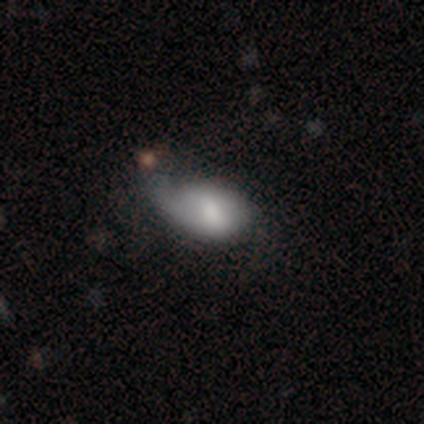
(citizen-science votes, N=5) smooth_or_featured: smooth (p=0.40) [tied with: featured or disk p=0.40]
how_rounded: in between (p=0.50) [tied with: cigar-shaped p=0.50]
merging: minor disturbance (p=0.50) [tied with: major disturbance p=0.50]